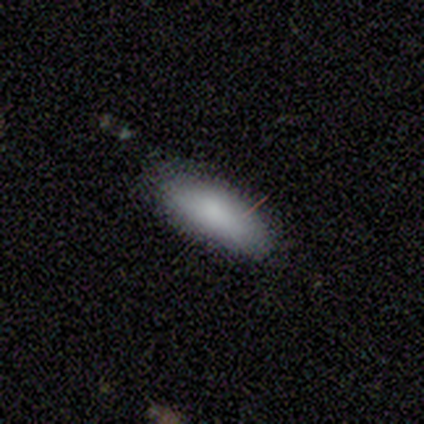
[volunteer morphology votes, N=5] This is clearly a smooth galaxy (100%). How rounded: likely in between (60%). Merging: clearly none (80%).